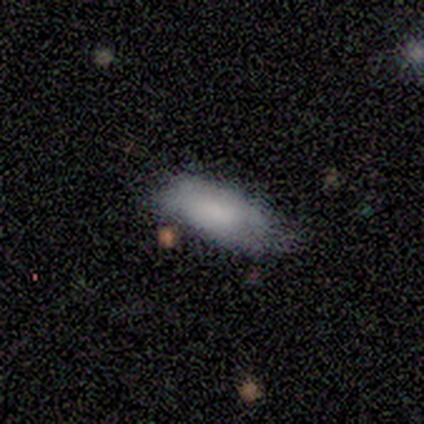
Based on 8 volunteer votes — Morphology: type=smooth (100%); roundness=in between (100%); merging=none (50%).